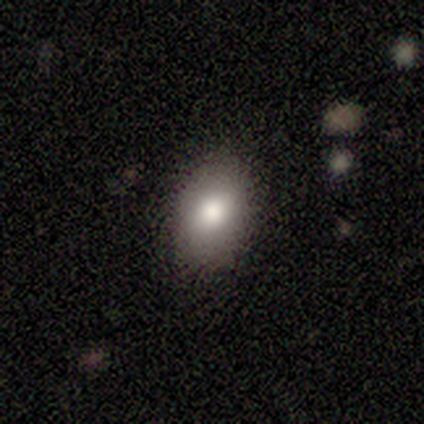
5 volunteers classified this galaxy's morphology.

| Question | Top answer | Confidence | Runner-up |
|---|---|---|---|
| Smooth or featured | smooth | 100% | — |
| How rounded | in between | 100% | — |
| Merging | none | 80% | merger (20%) |